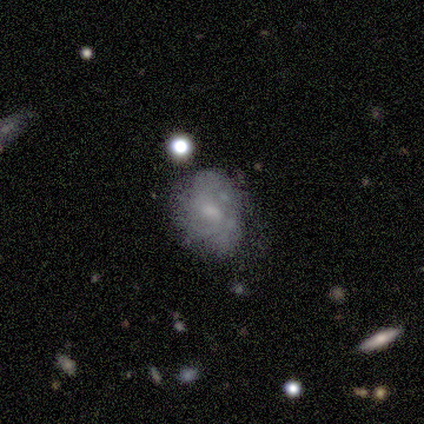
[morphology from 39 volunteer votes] A featured or disk galaxy (59%) with a weak bar (57%), 3 (38%) tight (62%) spiral arms (57%) and a small central bulge (61%). Merging: none (46%).